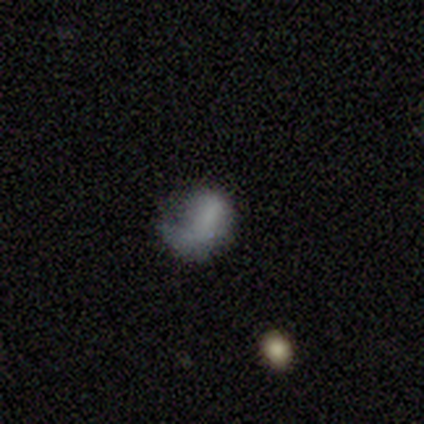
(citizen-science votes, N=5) This appears to be a smooth galaxy with no disk features (80%) that is in between round and cigar-shaped (75%). Merging: none (40%, tied with major disturbance).